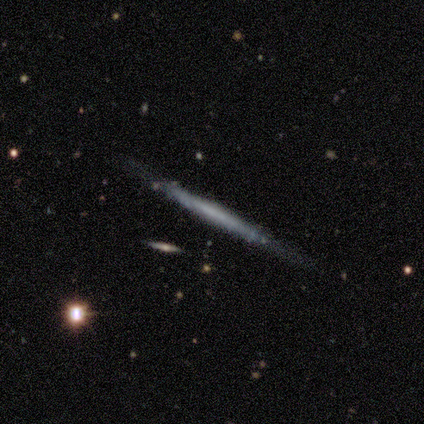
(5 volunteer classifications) Volunteers were most divided on "merging": none: 60%, minor disturbance: 40%, major disturbance: 0%, merger: 0%. More confident: edge-on disk — yes (100%); smooth or featured — featured or disk (80%); edge-on bulge — none (75%).